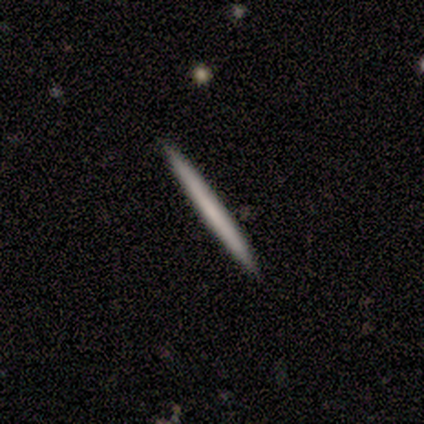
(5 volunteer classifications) A smooth galaxy with no disk features (60%) that is cigar-shaped (100%). Merging: none (100%).